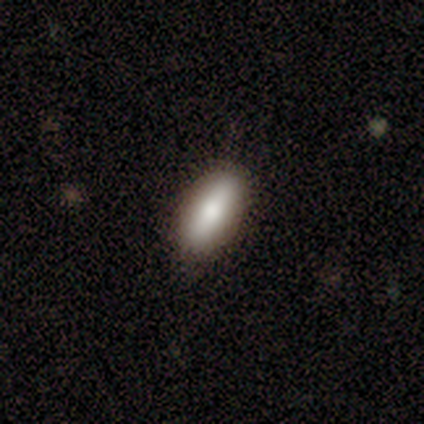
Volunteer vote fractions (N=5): smooth_or_featured: smooth (p=0.60) [alt: star or artifact p=0.40]
how_rounded: in between (p=0.67) [alt: cigar-shaped p=0.33]
merging: none (p=1.00)